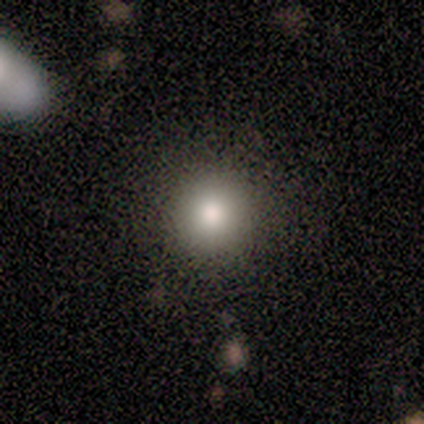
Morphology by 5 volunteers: Smooth or featured?
  - smooth: 80% *
  - star or artifact: 20%
  - featured or disk: 0%
How rounded?
  - round: 100% *
  - in between: 0%
  - cigar-shaped: 0%
Merging?
  - minor disturbance: 50% *
  - none: 25%
  - merger: 25%
  - major disturbance: 0%